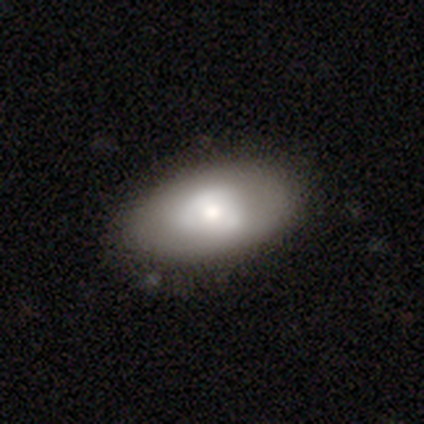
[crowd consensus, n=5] Morphology: type=smooth (60%); roundness=in between (100%); merging=none (60%).